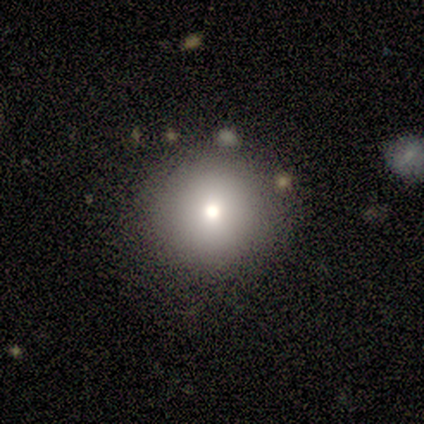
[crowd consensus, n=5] This is likely a smooth galaxy (60%). How rounded: clearly round (100%). Merging: clearly none (100%).